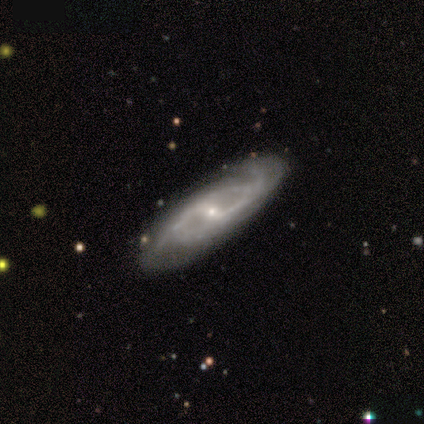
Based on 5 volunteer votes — Smooth or featured: featured or disk — 80% (star or artifact — 20%)
Edge-on disk: no — 100%
Bar: weak — 50% (strong — 25%)
Spiral arms: yes — 100%
Spiral winding: medium — 50% (tight — 25%)
Spiral arm count: 2 — 50% (tied with 3 — 50%)
Bulge size: small — 75% (moderate — 25%)
Merging: none — 75% (minor disturbance — 25%)